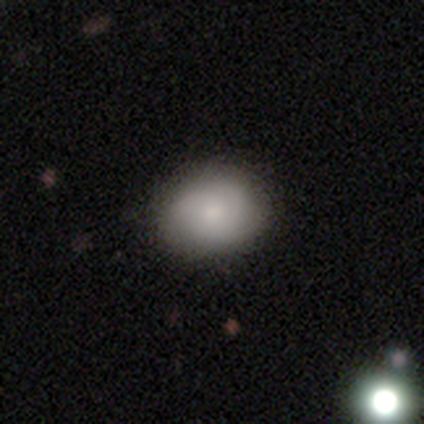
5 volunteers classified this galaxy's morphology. smooth-or-featured: smooth: 100% | featured or disk: 0% | star or artifact: 0%
  how-rounded: in between: 60% | round: 40% | cigar-shaped: 0%
  merging: none: 80% | minor disturbance: 20% | major disturbance: 0% | merger: 0%